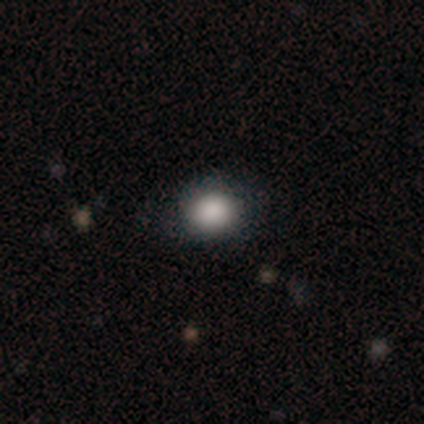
Smooth or featured?
  - smooth: 80% *
  - star or artifact: 20%
  - featured or disk: 0%
How rounded?
  - round: 100% *
  - in between: 0%
  - cigar-shaped: 0%
Merging?
  - none: 100% *
  - minor disturbance: 0%
  - major disturbance: 0%
  - merger: 0%